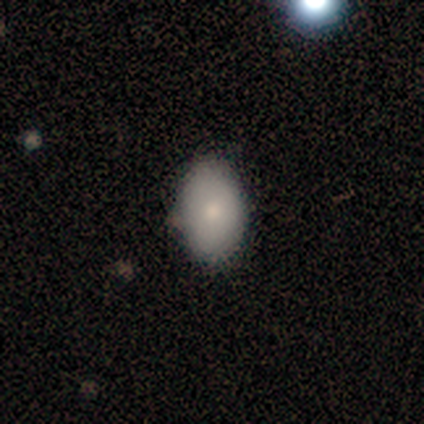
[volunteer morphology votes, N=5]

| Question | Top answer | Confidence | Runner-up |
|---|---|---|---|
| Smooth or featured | smooth | 60% | featured or disk (40%) |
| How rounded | round | 33% | tied: in between (33%), cigar-shaped (33%) |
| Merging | none | 80% | minor disturbance (20%) |